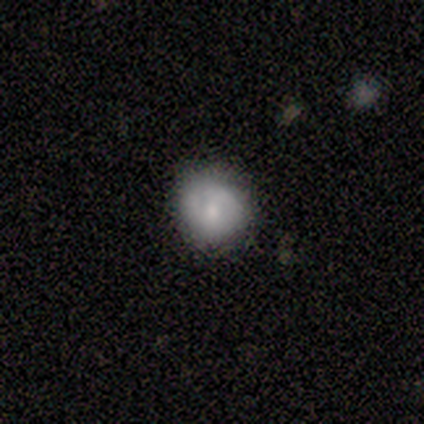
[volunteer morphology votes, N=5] This appears to be a featured or disk galaxy (60%) with no bar (100%), no spiral arms (100%) and a small central bulge (100%). Merging: minor disturbance (60%).